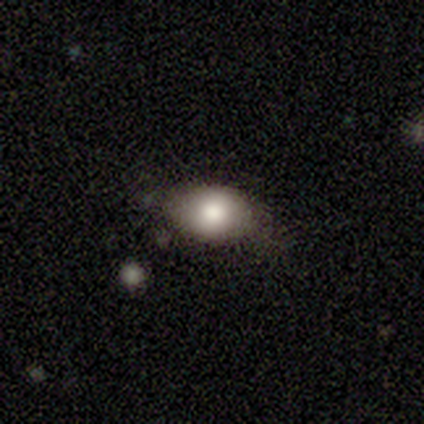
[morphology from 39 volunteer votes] smooth 79%, featured or disk 13%, star or artifact 8%. Down the decision tree: how rounded — in between (74%); merging — none (58%).